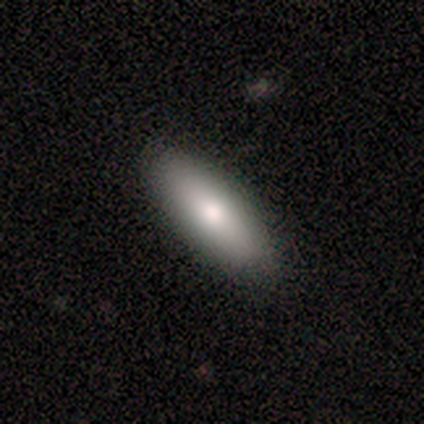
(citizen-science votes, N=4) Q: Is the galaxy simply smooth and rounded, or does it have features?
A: smooth — 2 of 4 (50%, tied with featured or disk).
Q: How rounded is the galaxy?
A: in between — 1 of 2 (50%, tied with cigar-shaped).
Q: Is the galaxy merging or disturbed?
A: none — 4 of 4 (100%).